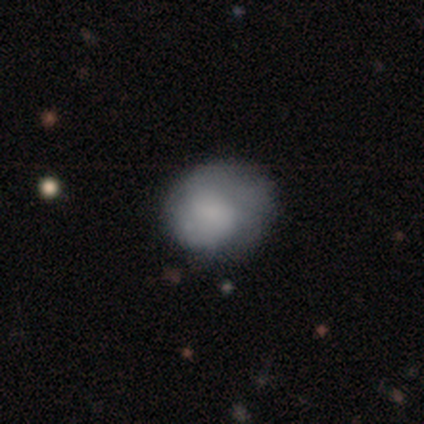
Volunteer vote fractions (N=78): Smooth or featured? smooth (68%)
How rounded? round (66%)
Merging? minor disturbance (21%)